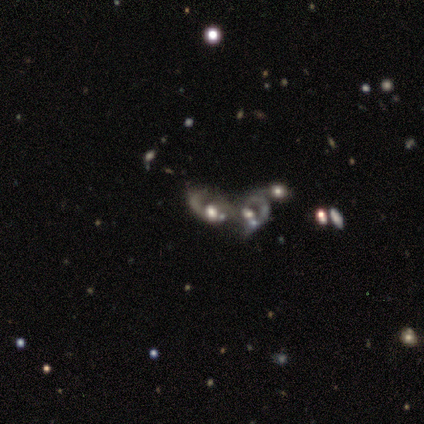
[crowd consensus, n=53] Smooth or featured? featured or disk (74%)
Edge-on disk? no (100%)
Bar? no (87%)
Spiral arms? no (54%)
Bulge size? moderate (56%)
Merging? merger (87%)